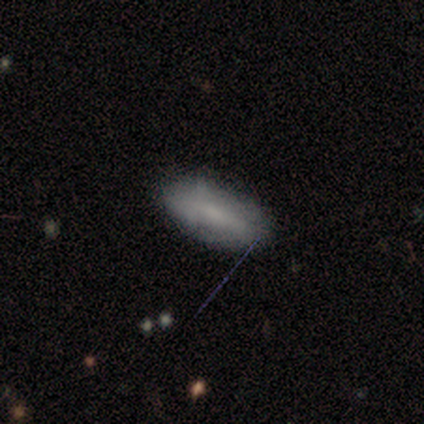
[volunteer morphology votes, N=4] This is likely a smooth galaxy (75%). How rounded: likely in between (67%). Merging: likely none (75%).